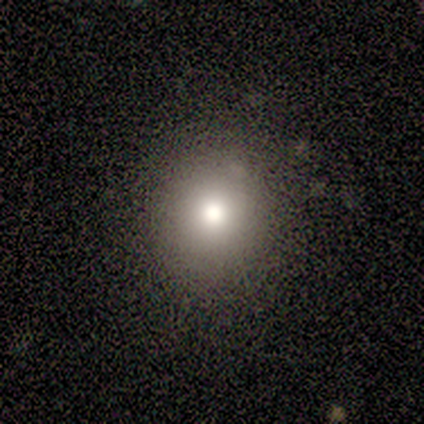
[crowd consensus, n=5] Overall: smooth (100%). How rounded: round (80%). Merging: none (60%; minor disturbance 40%).